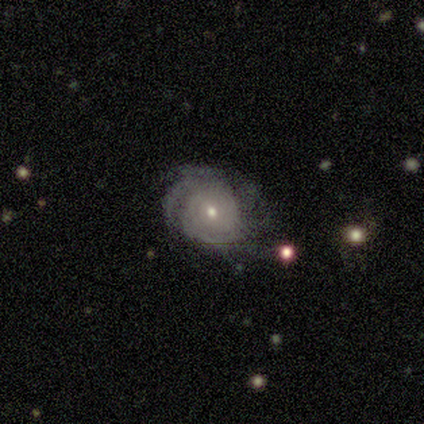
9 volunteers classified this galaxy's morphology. Smooth or featured? 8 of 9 (89%) said featured or disk. Edge-on disk? 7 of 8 (88%) said no. Bar? 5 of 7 (71%) said no. Spiral arms? 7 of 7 (100%) said yes. Spiral winding? 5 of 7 (71%) said tight. Spiral arm count? 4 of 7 (57%) said can't tell. Bulge size? 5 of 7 (71%) said small. Merging? 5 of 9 (56%) said none.